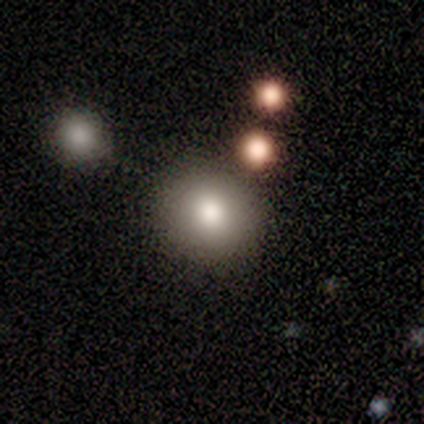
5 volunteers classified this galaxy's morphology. smooth 80%, featured or disk 20%, star or artifact 0%. Down the decision tree: how rounded — round (100%); merging — none (100%).